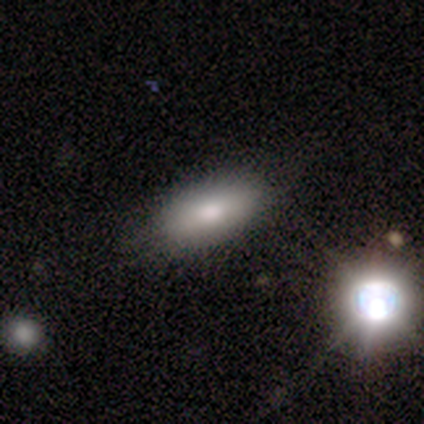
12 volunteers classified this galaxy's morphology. Smooth or featured: smooth — 67% (star or artifact — 25%)
How rounded: in between — 100%
Merging: none — 100%